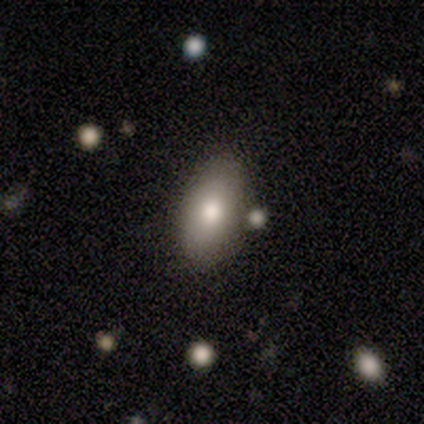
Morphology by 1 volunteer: This is clearly a smooth galaxy (100%). How rounded: clearly in between (100%). Merging: clearly none (100%).